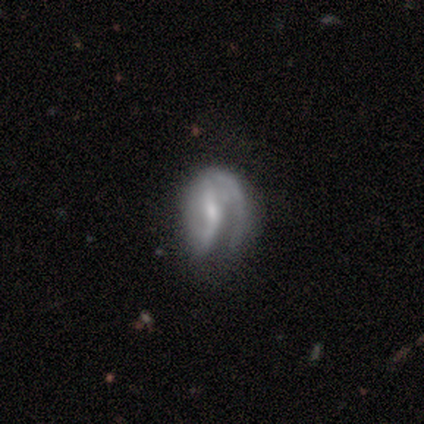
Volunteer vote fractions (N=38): smooth-or-featured: featured or disk: 76% | smooth: 18% | star or artifact: 5%
  disk-edge-on: no: 97% | yes: 3%
    bar: weak: 64% | strong: 21% | no: 14%
    has-spiral-arms: yes: 86% | no: 14%
      spiral-winding: tight: 38% | medium: 33% | loose: 29%
      spiral-arm-count: 1: 50% | 2: 38% | can't tell: 12% | 3: 0% | 4: 0% | more than 4: 0%
    bulge-size: small: 54% | moderate: 32% | none: 11% | large: 4% | dominant: 0%
  merging: major disturbance: 47% | minor disturbance: 28% | none: 22% | merger: 3%